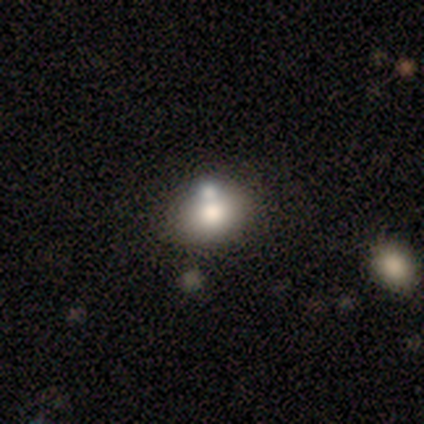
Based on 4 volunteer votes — Smooth or featured? 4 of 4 (100%) said smooth. How rounded? 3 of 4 (75%) said round. Merging? 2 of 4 (50%, tied with merger) said none.